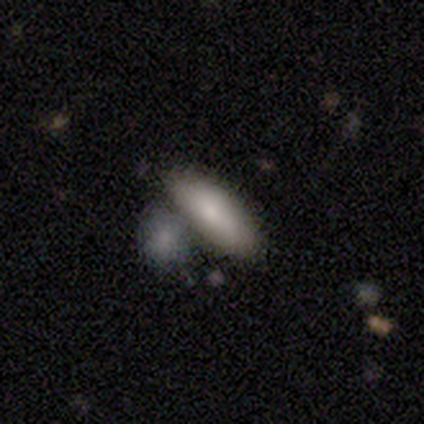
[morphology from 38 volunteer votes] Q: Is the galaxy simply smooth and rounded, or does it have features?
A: smooth — 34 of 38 (89%).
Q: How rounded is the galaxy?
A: in between — 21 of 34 (62%).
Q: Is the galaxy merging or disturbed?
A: none — 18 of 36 (50%).